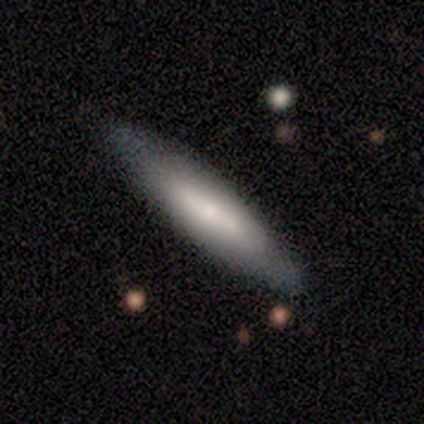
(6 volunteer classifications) This is likely a smooth galaxy (67%). How rounded: likely cigar-shaped (75%). Merging: clearly none (100%).